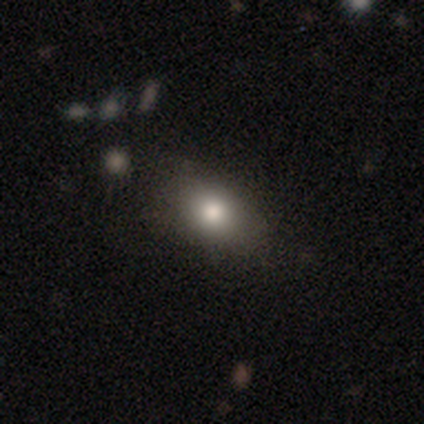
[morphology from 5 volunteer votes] This appears to be a smooth galaxy with no disk features (80%) that is round (50%, tied with in between). Merging: none (80%).